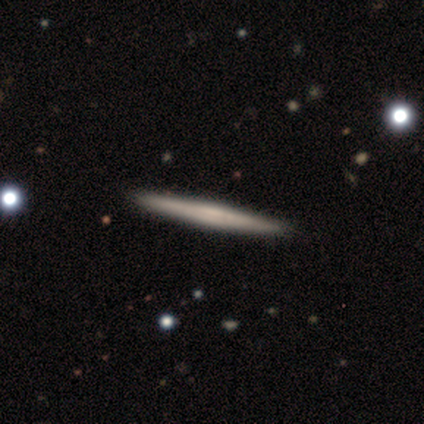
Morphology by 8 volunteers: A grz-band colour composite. It shows a smooth galaxy with no disk features (62%) that is cigar-shaped (100%). Merging: none (100%).